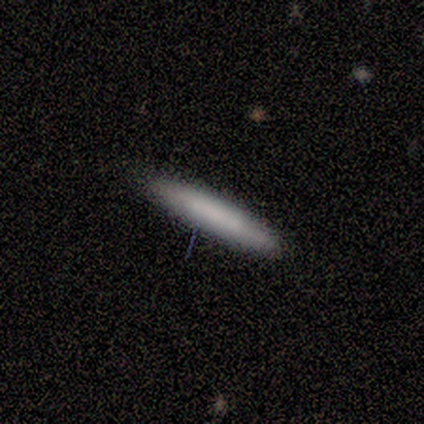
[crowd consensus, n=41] Smooth or featured? 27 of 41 (66%) said smooth. How rounded? 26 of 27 (96%) said cigar-shaped. Merging? 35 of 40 (88%) said none.